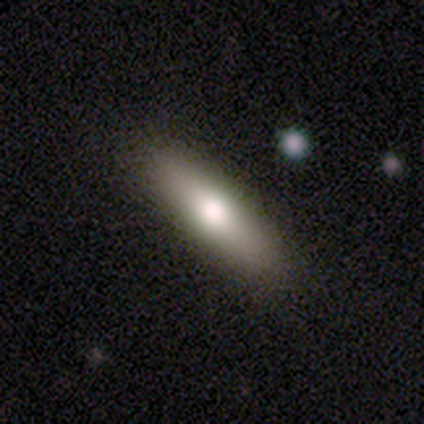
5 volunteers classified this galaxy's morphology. Overall: smooth (60%; featured or disk 40%). How rounded: cigar-shaped (67%; in between 33%). Merging: none (100%).